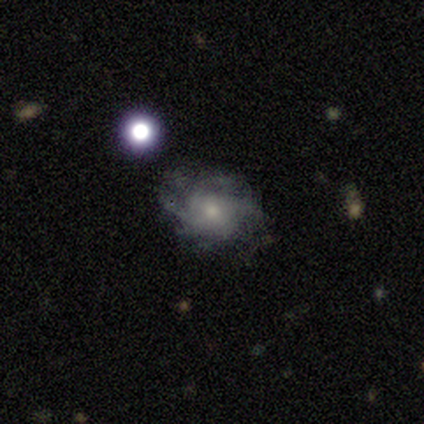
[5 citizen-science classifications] A featured or disk galaxy (80%) with no bar (100%), 4 (50%, tied with can't tell) tight (75%) spiral arms (100%) and a small central bulge (50%). Merging: none (60%).